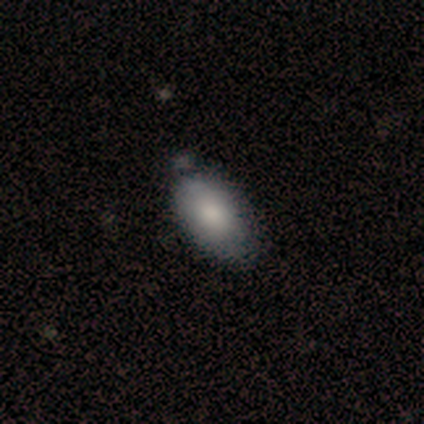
Smooth or featured? 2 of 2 (100%) said smooth. How rounded? 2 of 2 (100%) said in between. Merging? 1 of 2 (50%, tied with minor disturbance) said none.